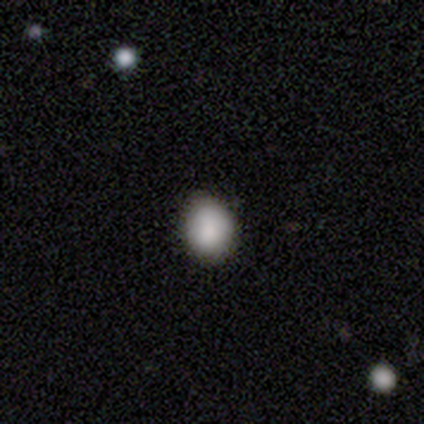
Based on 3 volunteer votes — Morphology: type=smooth (33%, tied with featured or disk and star or artifact); roundness=in between (100%); merging=none (50%, tied with minor disturbance).